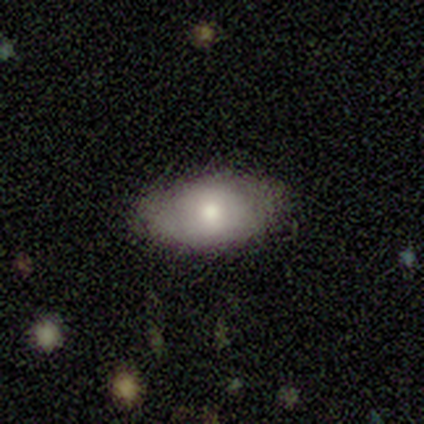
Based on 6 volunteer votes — smooth_or_featured: smooth (p=0.83) [alt: featured or disk p=0.17]
how_rounded: in between (p=0.80) [alt: round p=0.20]
merging: none (p=0.83) [alt: minor disturbance p=0.17]